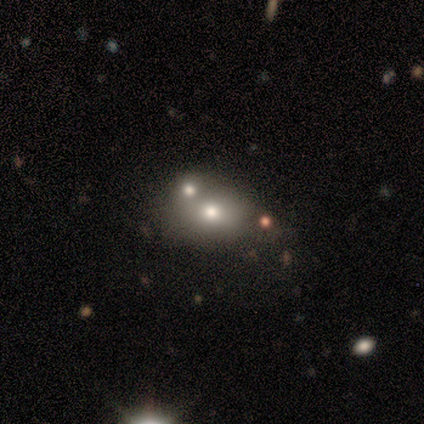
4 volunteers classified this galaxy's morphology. Smooth or featured? smooth (50%, tied with featured or disk)
How rounded? round (50%, tied with in between)
Merging? none (50%)